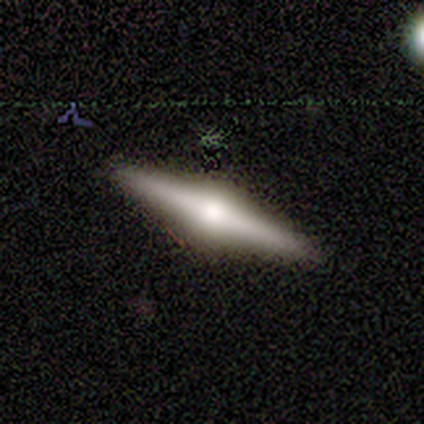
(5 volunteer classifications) Morphology: type=featured or disk (80%); edge-on=yes (100%); edge-on bulge=rounded (100%); merging=none (100%).